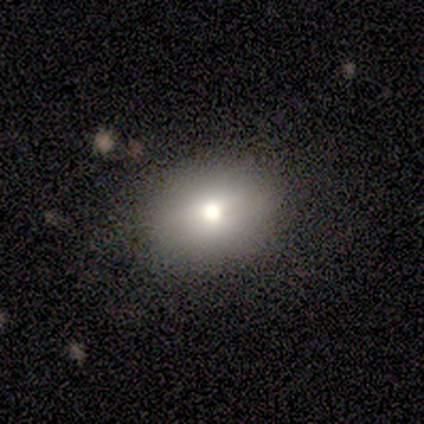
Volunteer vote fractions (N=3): Smooth or featured: smooth — 67% (star or artifact — 33%)
How rounded: in between — 100%
Merging: none — 100%